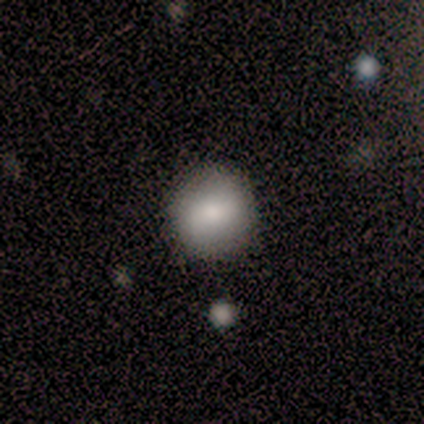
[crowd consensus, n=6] Morphology: type=smooth (100%); roundness=round (100%); merging=none (100%).